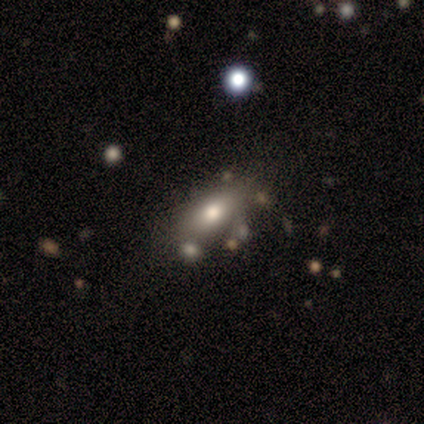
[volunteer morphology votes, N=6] A smooth galaxy with no disk features (67%) that is in between round and cigar-shaped (75%).

Vote fractions:
- Smooth or featured? smooth: 67% / featured or disk: 17% / star or artifact: 17%
- How rounded? in between: 75% / cigar-shaped: 25% / round: 0%
- Merging? minor disturbance: 40% (tied) / merger: 40% (tied) / none: 20% / major disturbance: 0%